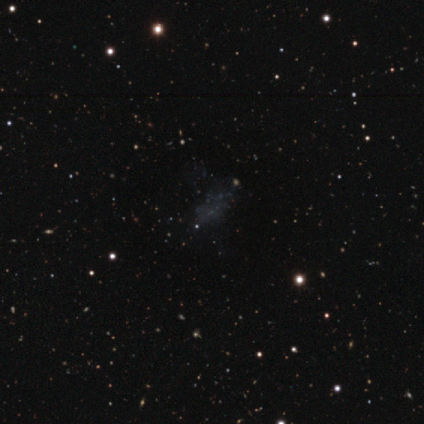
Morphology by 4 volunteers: smooth_or_featured: star or artifact (p=0.75) [alt: featured or disk p=0.25]